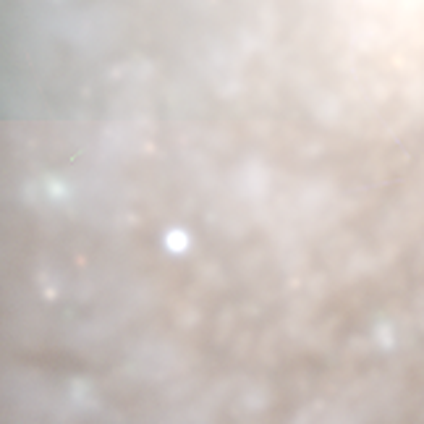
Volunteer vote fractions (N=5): Smooth or featured? 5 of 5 (100%) said star or artifact.